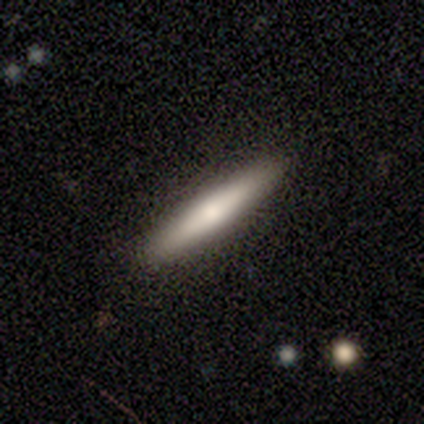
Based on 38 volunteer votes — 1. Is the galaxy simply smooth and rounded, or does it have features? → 53% smooth, 37% featured or disk, 11% star or artifact.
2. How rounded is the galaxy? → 100% cigar-shaped, 0% round, 0% in between.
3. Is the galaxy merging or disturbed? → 94% none, 6% minor disturbance, 0% major disturbance, 0% merger.